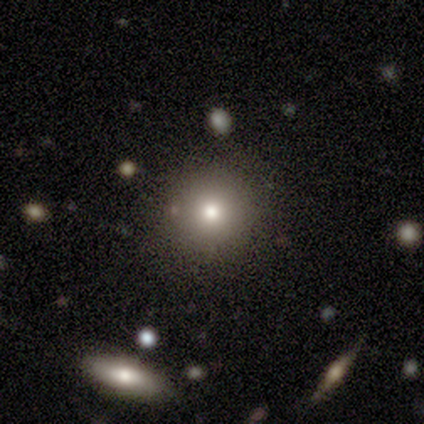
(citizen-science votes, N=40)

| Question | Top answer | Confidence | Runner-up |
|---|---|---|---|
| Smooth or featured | smooth | 60% | featured or disk (20%) |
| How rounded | round | 96% | in between (4%) |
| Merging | none | 84% | minor disturbance (12%) |